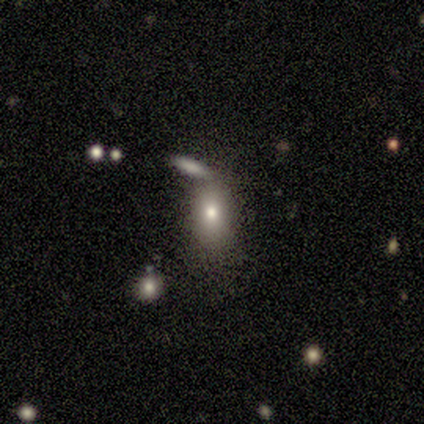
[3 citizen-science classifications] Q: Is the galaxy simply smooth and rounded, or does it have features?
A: smooth — 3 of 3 (100%).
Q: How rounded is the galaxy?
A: in between — 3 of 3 (100%).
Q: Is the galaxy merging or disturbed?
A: none — 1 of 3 (33%, tied with minor disturbance and merger).